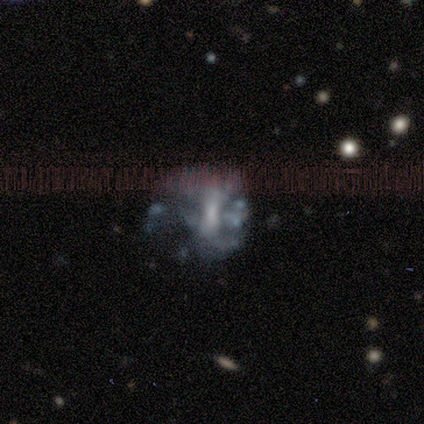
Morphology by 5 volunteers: Smooth or featured? featured or disk (100%)
Edge-on disk? no (100%)
Bar? strong (40%, tied with no)
Spiral arms? no (80%)
Bulge size? dominant (20%, tied with large, moderate, small and none)
Merging? none (40%, tied with major disturbance)